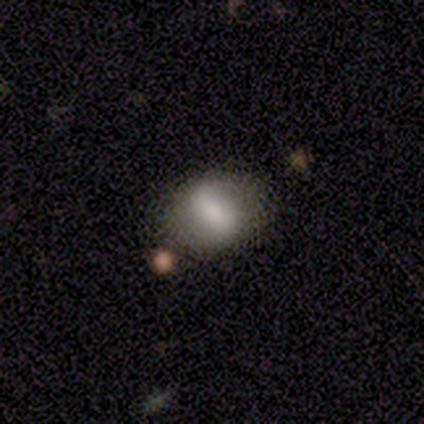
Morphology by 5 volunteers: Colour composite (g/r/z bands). It shows a smooth galaxy with no disk features (60%) that is in between round and cigar-shaped (67%). Merging: none (80%).